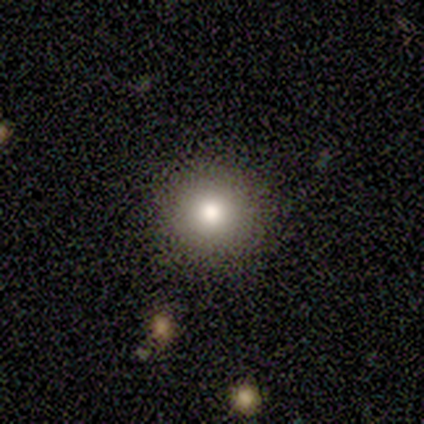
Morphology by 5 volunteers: smooth 40% (tied), star or artifact 40% (tied), featured or disk 20%. Down the decision tree: how rounded — round (100%); merging — none (100%).